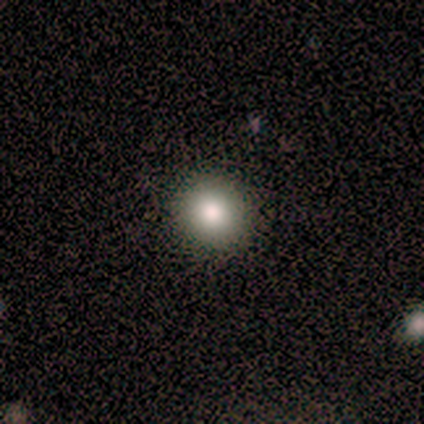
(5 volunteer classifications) Smooth or featured? 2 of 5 (40%, tied with star or artifact) said smooth. How rounded? 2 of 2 (100%) said round. Merging? 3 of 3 (100%) said none.